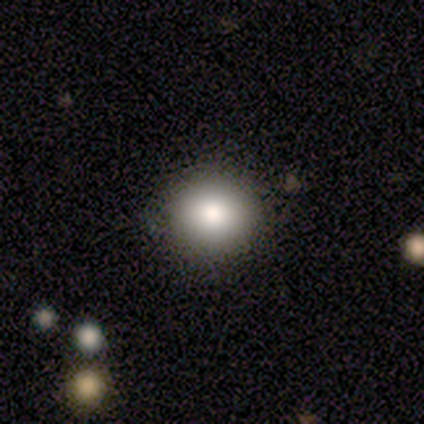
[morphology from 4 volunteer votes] smooth 100%, featured or disk 0%, star or artifact 0%. Down the decision tree: how rounded — round (75%); merging — none (50%, tied with minor disturbance).